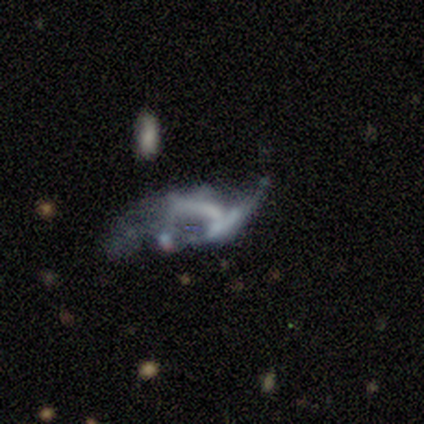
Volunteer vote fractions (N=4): This is likely a featured or disk galaxy (75%). It is clearly not viewed edge-on (100%). Bar: likely no (67%). Spiral arm pattern: clearly no (100%). Central bulge: clearly none (100%). Merging: marginally none (33%, tied with major disturbance and merger).